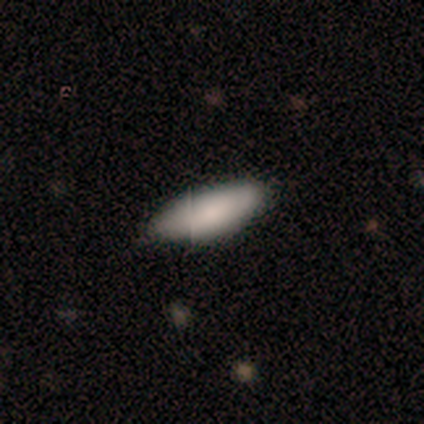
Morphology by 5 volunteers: Smooth or featured? 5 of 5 (100%) said smooth. How rounded? 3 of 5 (60%) said in between. Merging? 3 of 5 (60%) said minor disturbance.